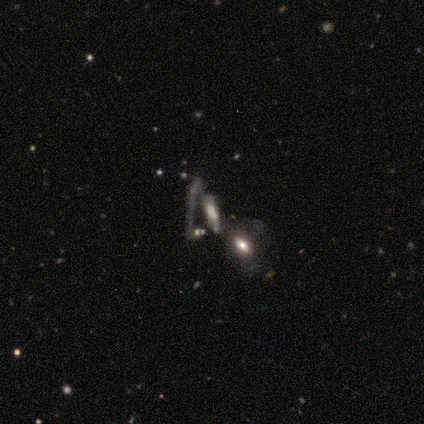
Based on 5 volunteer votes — Smooth or featured? featured or disk (60%)
Edge-on disk? yes (67%)
Edge-on bulge? boxy (50%, tied with rounded)
Merging? none (50%, tied with merger)